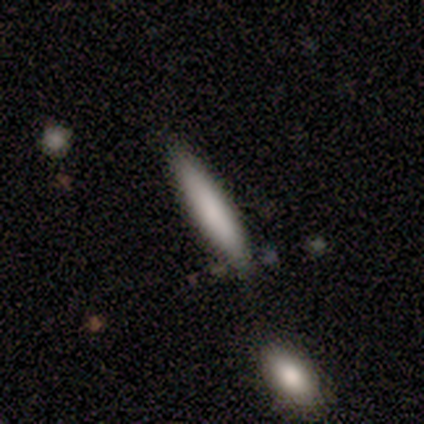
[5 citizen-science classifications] Volunteers were most divided on "merging" (2-way tie): none: 40%, minor disturbance: 40%, merger: 20%, major disturbance: 0%. More confident: smooth or featured — smooth (80%); how rounded — cigar-shaped (75%).